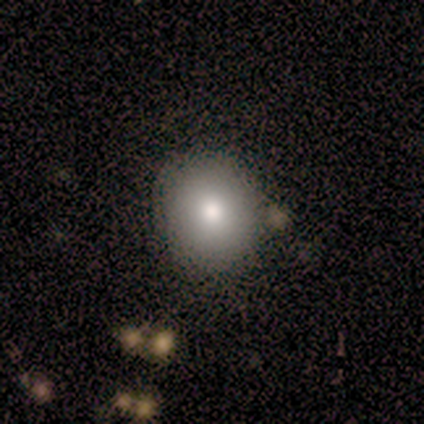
Overall: smooth (71%). How rounded: round (80%). Merging: none (67%).